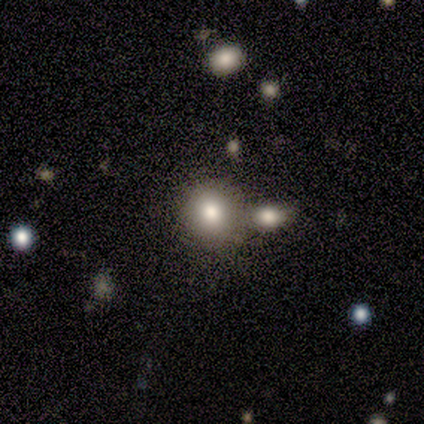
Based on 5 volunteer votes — Smooth or featured: smooth — 80% (star or artifact — 20%)
How rounded: round — 100%
Merging: minor disturbance — 50% (none — 25%)